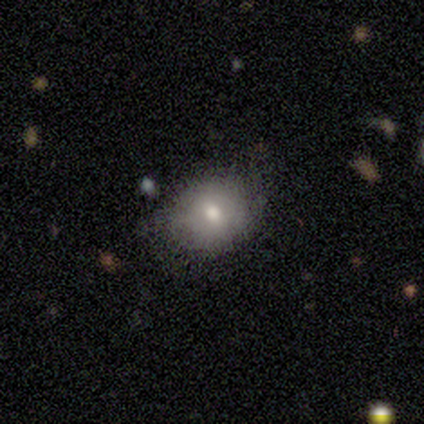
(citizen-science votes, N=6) A smooth galaxy with no disk features (67%) that is round (75%). Merging: none (80%).